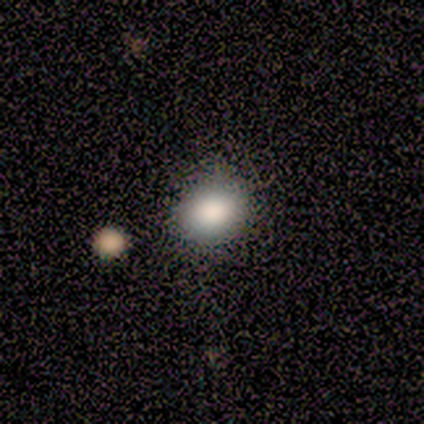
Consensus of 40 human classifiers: Smooth or featured: smooth — 80% (star or artifact — 18%)
How rounded: round — 66% (in between — 34%)
Merging: none — 52% (merger — 6%)